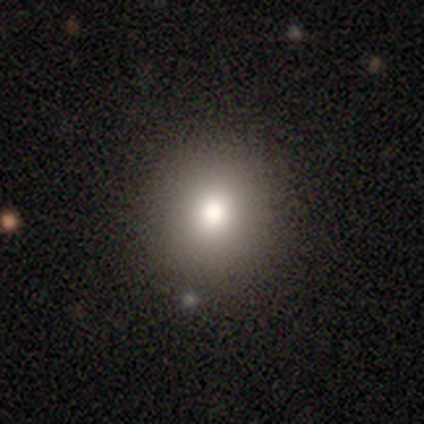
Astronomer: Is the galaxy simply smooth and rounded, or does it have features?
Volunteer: smooth — 60%.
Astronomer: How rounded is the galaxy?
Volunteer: round — 100%.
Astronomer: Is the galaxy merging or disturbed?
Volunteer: none — 100%.